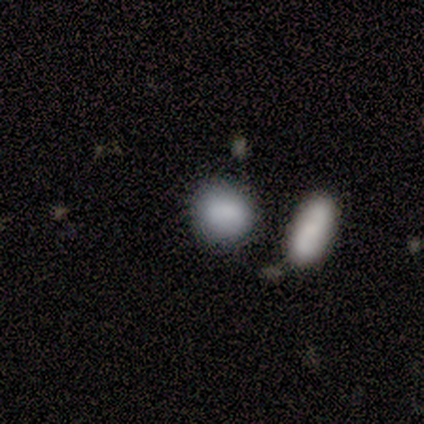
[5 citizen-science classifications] smooth 100%, featured or disk 0%, star or artifact 0%. Down the decision tree: how rounded — in between (60%); merging — none (60%).